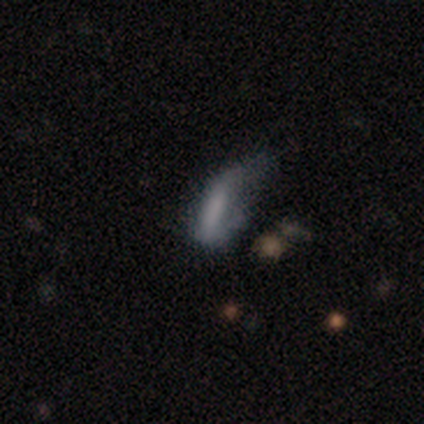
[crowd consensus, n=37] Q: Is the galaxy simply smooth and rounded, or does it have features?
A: smooth — 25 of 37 (68%).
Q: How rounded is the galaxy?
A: in between — 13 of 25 (52%).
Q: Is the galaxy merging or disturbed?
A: major disturbance — 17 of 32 (53%).